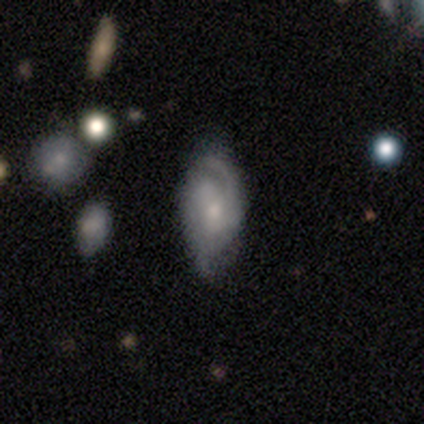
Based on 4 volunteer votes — Morphology: type=featured or disk (100%); edge-on=no (100%); bar=no (100%); spiral arms=yes (100%); winding=loose (75%); arm count=can't tell (50%); bulge=small (50%); merging=none (75%).